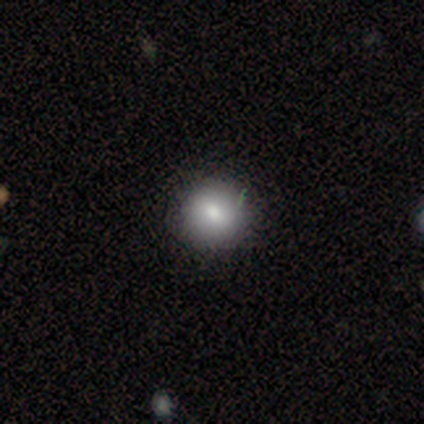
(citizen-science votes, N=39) smooth_or_featured: smooth (p=0.74) [alt: featured or disk p=0.18]
how_rounded: round (p=0.93) [alt: in between p=0.07]
merging: none (p=0.89) [alt: minor disturbance p=0.11]